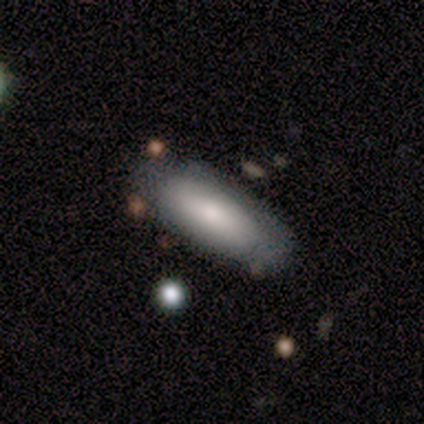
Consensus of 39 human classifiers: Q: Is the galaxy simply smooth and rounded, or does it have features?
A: smooth — 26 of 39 (67%).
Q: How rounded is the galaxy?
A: in between — 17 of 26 (65%).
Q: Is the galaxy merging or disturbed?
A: none — 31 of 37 (84%).